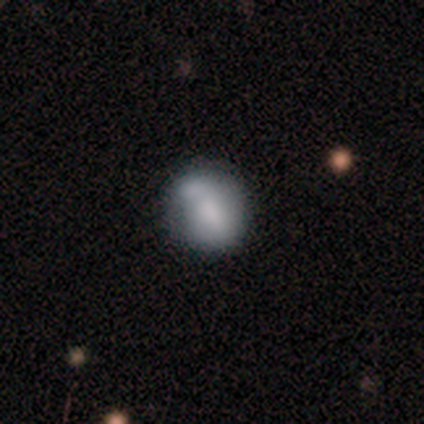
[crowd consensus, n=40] This is likely a smooth galaxy (62%). How rounded: possibly round (52%). Merging: marginally minor disturbance (41%).